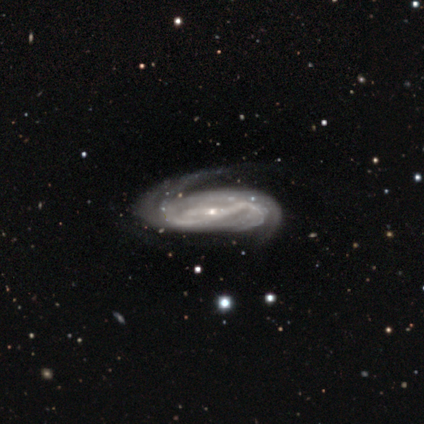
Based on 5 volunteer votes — Overall: featured or disk (100%). Edge-on disk: no (80%). Bar: strong (50%; weak 25%). Spiral arms: yes (100%). Spiral arm count: 2 (100%). Spiral winding: medium (50%; tight 25%). Bulge size: small (75%). Merging: none (40%, tied with major disturbance).